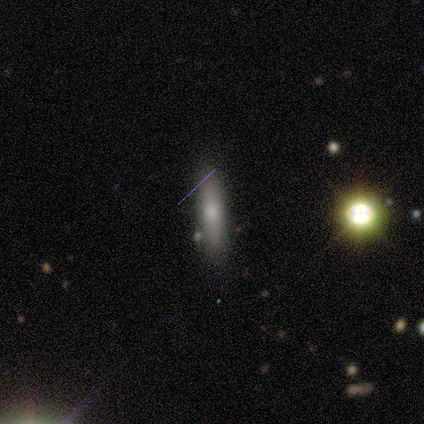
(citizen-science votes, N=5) smooth 100%, featured or disk 0%, star or artifact 0%. Down the decision tree: how rounded — cigar-shaped (100%); merging — none (100%).